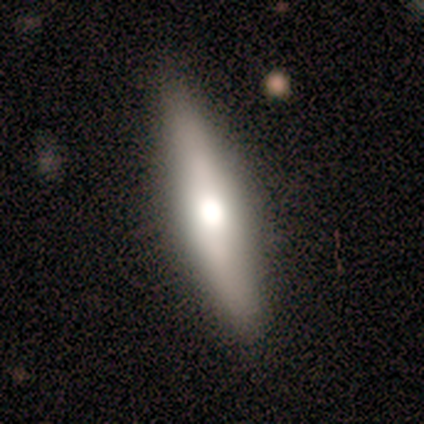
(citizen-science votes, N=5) This appears to be a featured or disk galaxy (100%) viewed edge-on (80%) with a rounded central bulge (75%). Merging: none (80%).